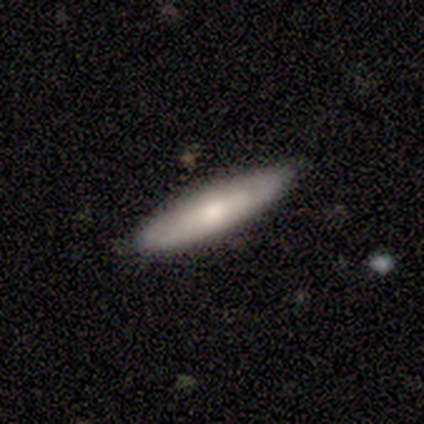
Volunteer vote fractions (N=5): A smooth galaxy with no disk features (40%, tied with featured or disk) that is cigar-shaped (100%).

Vote fractions:
- Smooth or featured? smooth: 40% (tied) / featured or disk: 40% (tied) / star or artifact: 20%
- How rounded? cigar-shaped: 100% / round: 0% / in between: 0%
- Merging? none: 100% / minor disturbance: 0% / major disturbance: 0% / merger: 0%